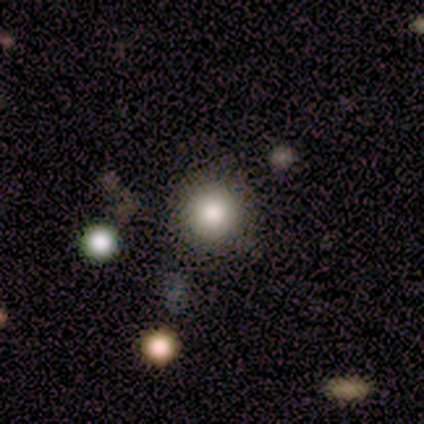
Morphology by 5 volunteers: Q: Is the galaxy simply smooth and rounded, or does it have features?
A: smooth — 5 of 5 (100%).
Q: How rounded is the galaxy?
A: round — 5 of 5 (100%).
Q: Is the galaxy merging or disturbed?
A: none — 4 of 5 (80%).